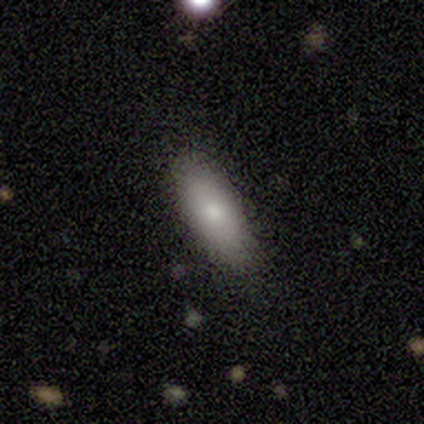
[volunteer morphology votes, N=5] type=smooth (80%); roundness=in between (100%); merging=none (100%).